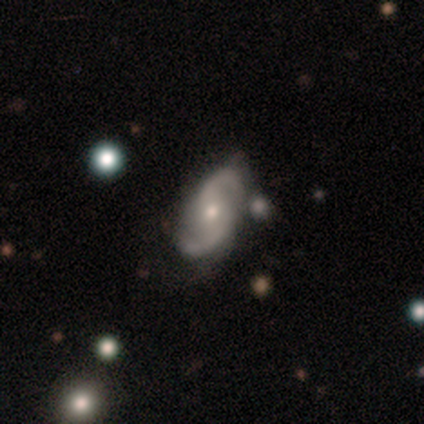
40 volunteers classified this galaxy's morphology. smooth-or-featured: featured or disk: 92% | smooth: 8% | star or artifact: 0%
  disk-edge-on: no: 97% | yes: 3%
    bar: no: 50% | weak: 36% | strong: 14%
    has-spiral-arms: yes: 100% | no: 0%
      spiral-winding: medium: 53% | loose: 47% | tight: 0%
      spiral-arm-count: 2: 89% | can't tell: 11% | 1: 0% | 3: 0% | 4: 0% | more than 4: 0%
    bulge-size: moderate: 47% (tied) | small: 47% (tied) | dominant: 3% | none: 3% | large: 0%
  merging: none: 57% | minor disturbance: 25% | merger: 15% | major disturbance: 2%